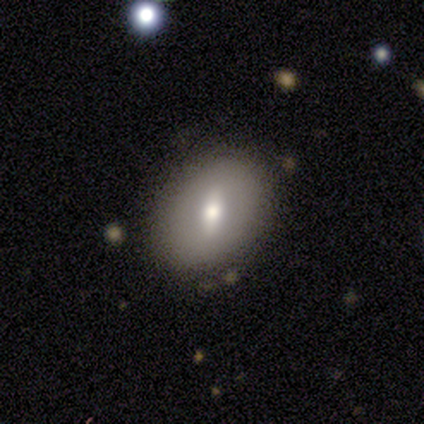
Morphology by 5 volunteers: Smooth or featured? smooth (60%)
How rounded? in between (100%)
Merging? none (100%)